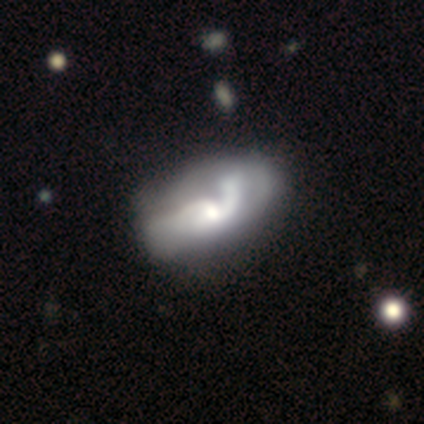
Smooth or featured? featured or disk (82%)
Edge-on disk? no (100%)
Bar? no (58%)
Spiral arms? yes (76%)
Spiral winding? loose (76%)
Spiral arm count? 2 (64%)
Bulge size? moderate (48%)
Merging? minor disturbance (21%, tied with major disturbance)